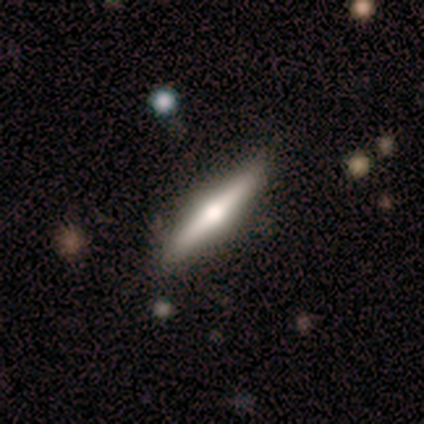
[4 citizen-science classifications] featured or disk 75%, smooth 25%, star or artifact 0%. Down the decision tree: edge-on disk — yes (100%); edge-on bulge — rounded (100%); merging — none (50%, tied with minor disturbance).